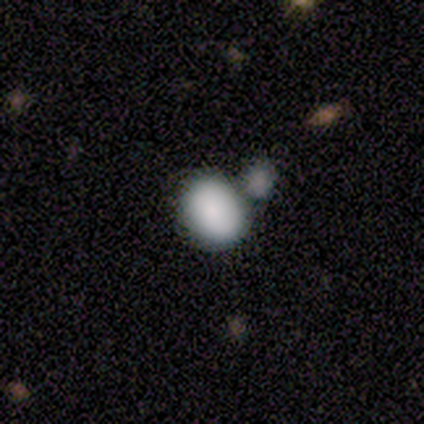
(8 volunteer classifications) smooth-or-featured: smooth: 88% | star or artifact: 12% | featured or disk: 0%
  how-rounded: in between: 71% | round: 29% | cigar-shaped: 0%
  merging: merger: 43% | none: 29% | minor disturbance: 29% | major disturbance: 0%